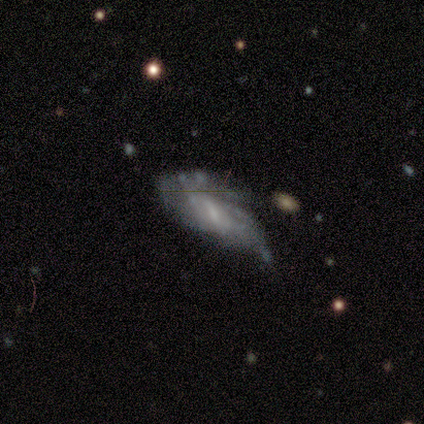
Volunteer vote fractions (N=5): Volunteers were most divided on "spiral winding" (3-way tie): tight: 33%, medium: 33%, loose: 33%; "merging" (2-way tie): none: 40%, major disturbance: 40%, minor disturbance: 20%, merger: 0%. More confident: smooth or featured — featured or disk (100%); edge-on disk — no (100%); spiral arm count — can't tell (100%); spiral arms — yes (60%); bulge size — small (60%); bar — no (60%).